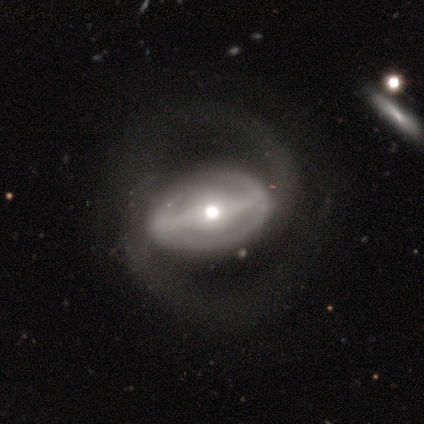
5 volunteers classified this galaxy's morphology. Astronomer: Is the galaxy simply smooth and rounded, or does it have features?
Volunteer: featured or disk — 100%.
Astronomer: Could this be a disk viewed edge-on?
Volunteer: no — 100%.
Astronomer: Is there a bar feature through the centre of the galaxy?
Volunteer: strong — 80%.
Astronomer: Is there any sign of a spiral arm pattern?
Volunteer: yes — 80%.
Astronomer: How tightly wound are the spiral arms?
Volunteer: tight — 50%.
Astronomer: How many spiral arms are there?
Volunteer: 2 — 75%.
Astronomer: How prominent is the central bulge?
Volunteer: moderate — 80%.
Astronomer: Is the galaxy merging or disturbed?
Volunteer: major disturbance — 60% (runner-up: minor disturbance, 40%).